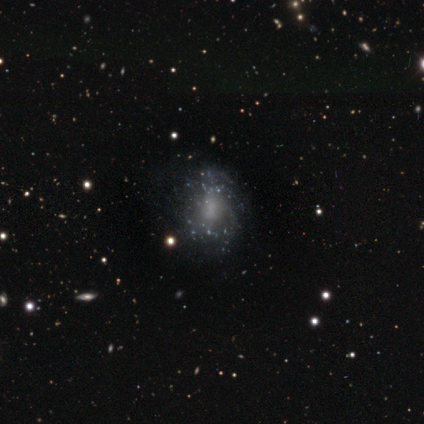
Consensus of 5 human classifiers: Overall: featured or disk (60%; smooth 40%). Edge-on disk: no (100%). Bar: no (67%; weak 33%). Spiral arms: no (67%; yes 33%). Bulge size: none (100%). Merging: none (80%).